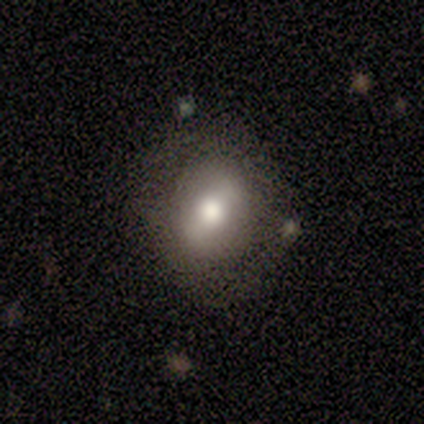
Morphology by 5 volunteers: smooth_or_featured: smooth (p=0.40) [tied with: featured or disk p=0.40]
how_rounded: round (p=0.50) [tied with: in between p=0.50]
merging: none (p=0.50) [alt: minor disturbance p=0.25]